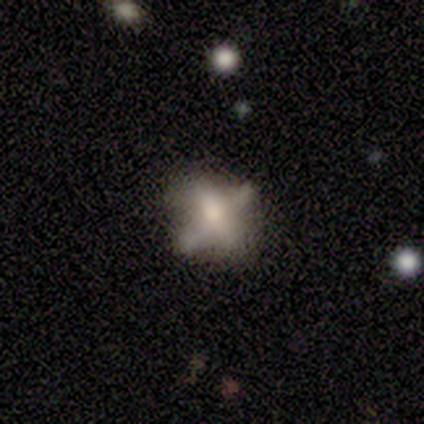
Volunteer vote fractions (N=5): Morphology: type=featured or disk (60%); edge-on=no (100%); bar=no (67%); spiral arms=no (100%); bulge=moderate (67%); merging=none (25%, tied with minor disturbance, major disturbance and merger).